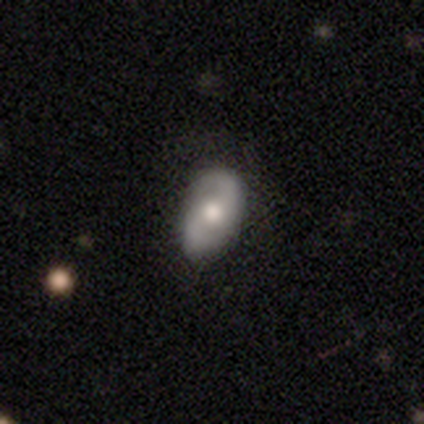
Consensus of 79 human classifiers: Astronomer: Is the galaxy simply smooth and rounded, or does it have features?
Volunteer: featured or disk — 70%.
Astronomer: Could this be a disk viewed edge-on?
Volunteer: no — 98%.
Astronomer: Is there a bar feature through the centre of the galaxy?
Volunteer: no — 65%.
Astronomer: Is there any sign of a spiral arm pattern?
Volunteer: yes — 85%.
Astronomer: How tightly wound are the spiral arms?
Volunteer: medium — 50% (runner-up: loose, 30%).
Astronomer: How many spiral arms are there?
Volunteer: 2 — 96%.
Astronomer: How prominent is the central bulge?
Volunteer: moderate — 78%.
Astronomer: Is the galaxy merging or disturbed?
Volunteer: none — 42%.